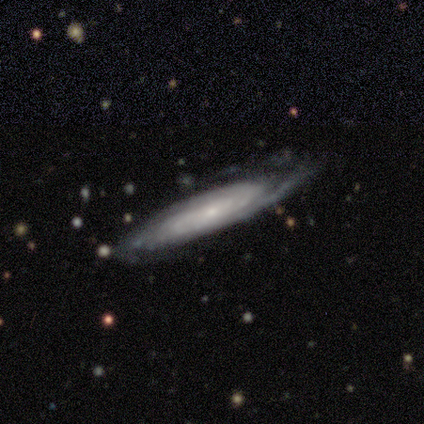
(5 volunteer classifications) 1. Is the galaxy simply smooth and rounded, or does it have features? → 100% featured or disk, 0% smooth, 0% star or artifact.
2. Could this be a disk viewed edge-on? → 80% no, 20% yes.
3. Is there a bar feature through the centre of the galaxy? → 75% no, 25% weak, 0% strong.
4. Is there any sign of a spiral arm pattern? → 100% yes, 0% no.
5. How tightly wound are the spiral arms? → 50% tight (tied), 50% medium (tied), 0% loose.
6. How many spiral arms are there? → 50% 2 (tied), 50% can't tell (tied), 0% 1, 0% 3, 0% 4, 0% more than 4.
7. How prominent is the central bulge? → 50% moderate (tied), 50% small (tied), 0% dominant, 0% large, 0% none.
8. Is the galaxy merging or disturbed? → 100% none, 0% minor disturbance, 0% major disturbance, 0% merger.